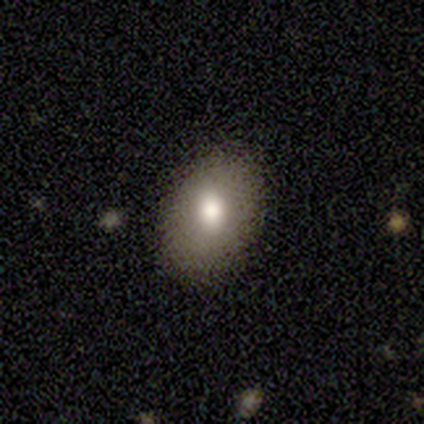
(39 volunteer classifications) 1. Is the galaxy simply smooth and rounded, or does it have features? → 69% smooth, 15% featured or disk, 15% star or artifact.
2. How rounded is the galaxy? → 85% in between, 15% round, 0% cigar-shaped.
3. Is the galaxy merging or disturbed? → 79% none, 15% minor disturbance, 6% major disturbance, 0% merger.